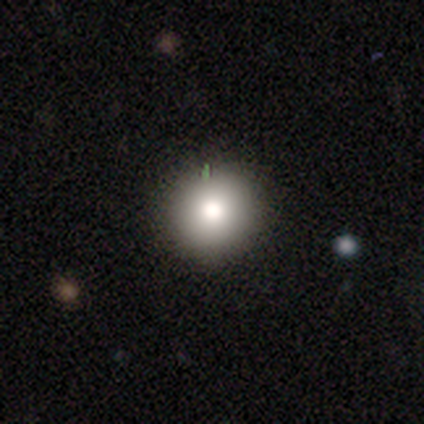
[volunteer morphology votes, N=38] Volunteers were most divided on "smooth or featured": smooth: 84%, star or artifact: 11%, featured or disk: 5%. More confident: how rounded — round (100%); merging — none (88%).